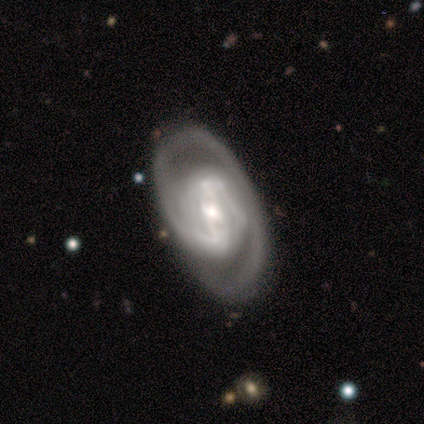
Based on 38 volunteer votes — Morphology: type=featured or disk (87%); edge-on=no (97%); bar=strong (53%); spiral arms=yes (94%); winding=tight (57%); arm count=2 (60%); bulge=moderate (41%); merging=none (78%).